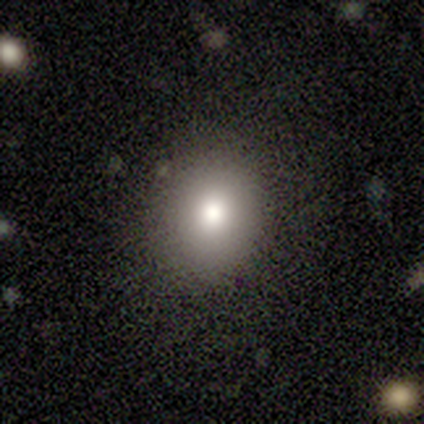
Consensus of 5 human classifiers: A smooth galaxy with no disk features (40%, tied with featured or disk) that is round (100%). Merging: none (100%).